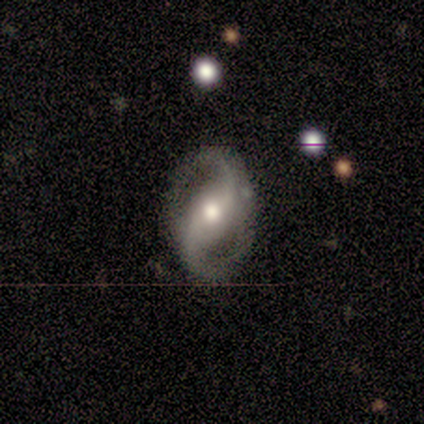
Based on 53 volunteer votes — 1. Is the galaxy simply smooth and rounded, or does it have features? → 91% featured or disk, 8% smooth, 2% star or artifact.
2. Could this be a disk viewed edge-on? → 98% no, 2% yes.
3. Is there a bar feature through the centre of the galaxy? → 38% no, 34% weak, 28% strong.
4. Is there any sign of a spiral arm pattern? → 98% yes, 2% no.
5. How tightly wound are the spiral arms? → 54% loose, 33% medium, 13% tight.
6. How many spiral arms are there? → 98% 2, 2% can't tell, 0% 1, 0% 3, 0% 4, 0% more than 4.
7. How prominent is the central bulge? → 79% moderate, 13% small, 9% large, 0% dominant, 0% none.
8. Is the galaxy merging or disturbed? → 90% none, 6% minor disturbance, 4% major disturbance, 0% merger.